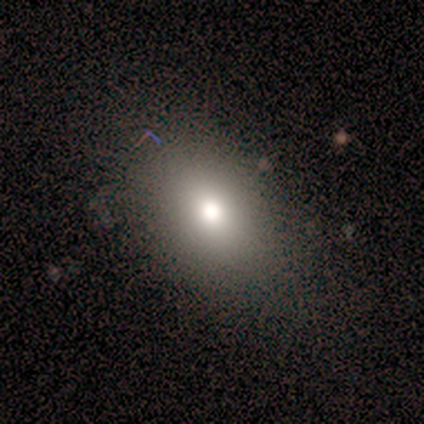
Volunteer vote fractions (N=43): smooth 74%, star or artifact 14%, featured or disk 12%. Down the decision tree: how rounded — in between (84%); merging — none (84%).